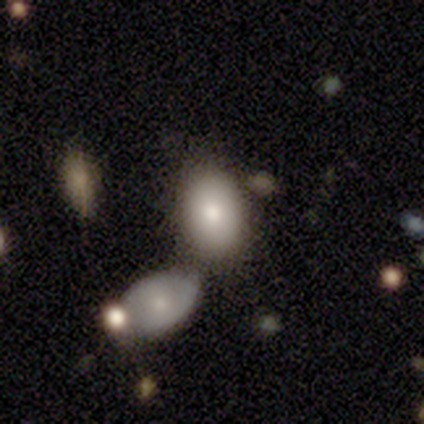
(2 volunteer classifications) Volunteers were most divided on "how rounded" (2-way tie): round: 50%, in between: 50%, cigar-shaped: 0%; "merging" (2-way tie): none: 50%, merger: 50%, minor disturbance: 0%, major disturbance: 0%. More confident: smooth or featured — smooth (100%).